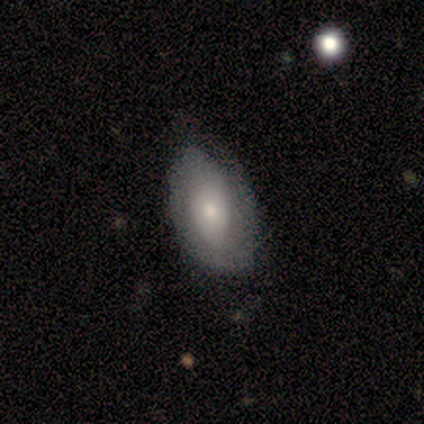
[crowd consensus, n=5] This is clearly a smooth galaxy (80%). How rounded: likely in between (75%). Merging: clearly none (80%).